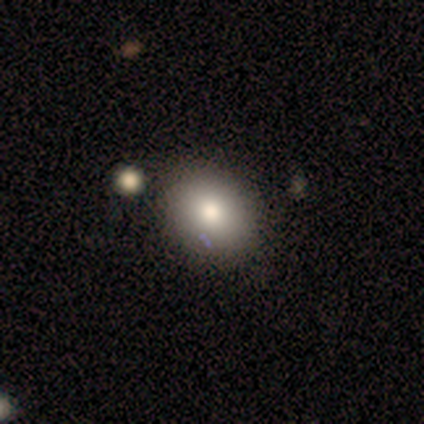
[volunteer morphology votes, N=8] smooth-or-featured: smooth: 88% | star or artifact: 12% | featured or disk: 0%
  how-rounded: round: 71% | in between: 29% | cigar-shaped: 0%
  merging: none: 86% | minor disturbance: 14% | major disturbance: 0% | merger: 0%